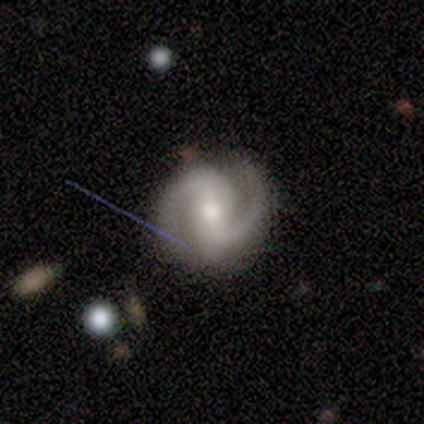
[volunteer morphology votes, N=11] A featured or disk galaxy (100%) with a strong bar (55%), 2 (100%) medium (64%) spiral arms (100%) and a moderate central bulge (73%).

Vote fractions:
- Smooth or featured? featured or disk: 100% / smooth: 0% / star or artifact: 0%
- Edge-on disk? no: 100% / yes: 0%
- Bar? strong: 55% / no: 27% / weak: 18%
- Spiral arms? yes: 100% / no: 0%
- Spiral winding? medium: 64% / loose: 27% / tight: 9%
- Spiral arm count? 2: 100% / 1: 0% / 3: 0% / 4: 0% / more than 4: 0% / can't tell: 0%
- Bulge size? moderate: 73% / small: 27% / dominant: 0% / large: 0% / none: 0%
- Merging? none: 82% / minor disturbance: 9% / major disturbance: 9% / merger: 0%